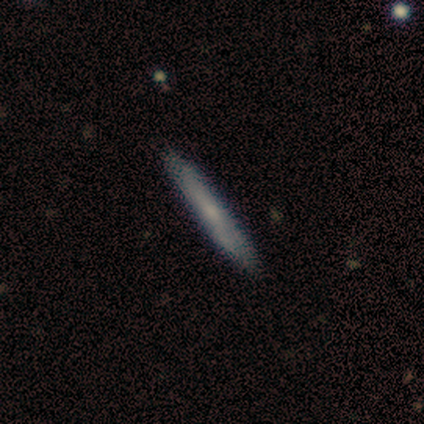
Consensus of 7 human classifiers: Smooth or featured?
  - smooth: 57% *
  - featured or disk: 29%
  - star or artifact: 14%
How rounded?
  - cigar-shaped: 100% *
  - round: 0%
  - in between: 0%
Merging?
  - none: 100% *
  - minor disturbance: 0%
  - major disturbance: 0%
  - merger: 0%